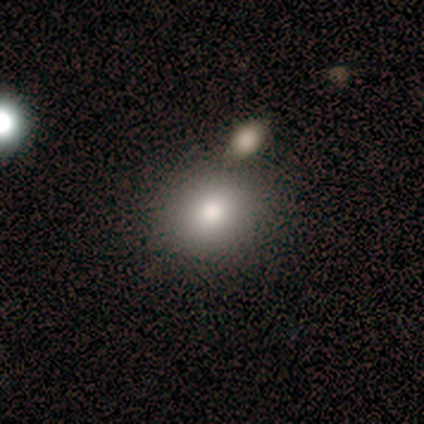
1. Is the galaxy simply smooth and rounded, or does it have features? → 60% smooth, 40% star or artifact, 0% featured or disk.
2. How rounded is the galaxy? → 100% round, 0% in between, 0% cigar-shaped.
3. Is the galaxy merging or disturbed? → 100% none, 0% minor disturbance, 0% major disturbance, 0% merger.